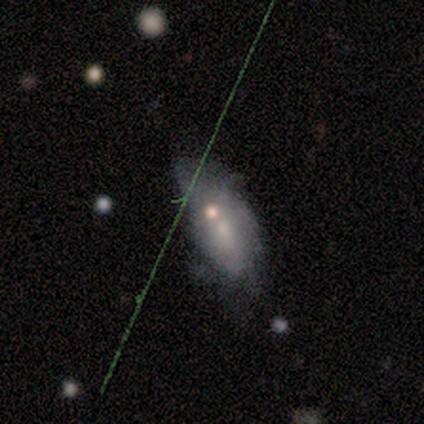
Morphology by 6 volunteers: Volunteers were most divided on "how rounded" (2-way tie): in between: 50%, cigar-shaped: 50%, round: 0%. More confident: smooth or featured — smooth (67%); merging — major disturbance (50%).